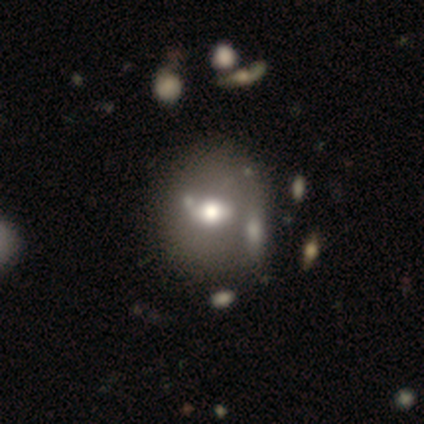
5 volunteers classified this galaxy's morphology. Smooth or featured: featured or disk — 80% (star or artifact — 20%)
Edge-on disk: yes — 50% (tied with no — 50%)
Edge-on bulge: rounded — 100%
Merging: none — 50% (minor disturbance — 25%)